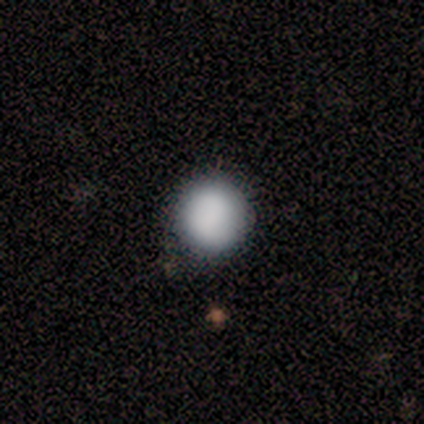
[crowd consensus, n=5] Overall: smooth (100%). How rounded: round (100%). Merging: none (100%).